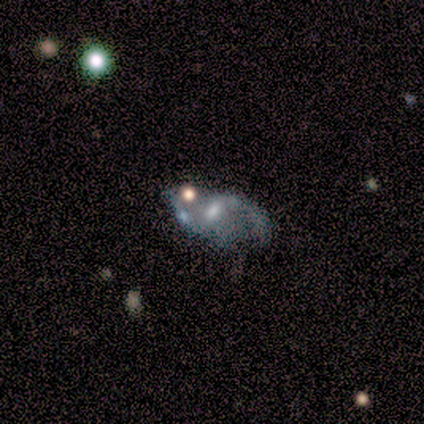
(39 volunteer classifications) A featured or disk galaxy (85%) with a weak bar (67%), 2 (82%) loose (61%) spiral arms (85%) and a moderate central bulge (52%). Merging: none (29%).